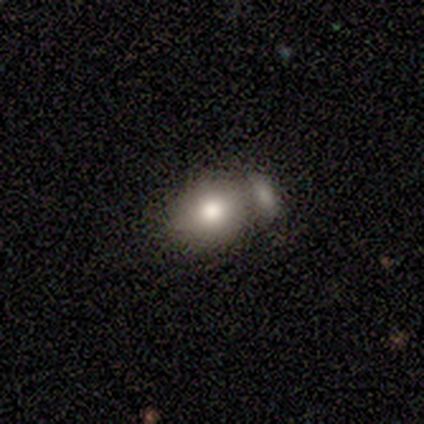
smooth-or-featured: smooth: 80% | featured or disk: 20% | star or artifact: 0%
  how-rounded: round: 50% (tied) | in between: 50% (tied) | cigar-shaped: 0%
  merging: merger: 60% | minor disturbance: 20% | major disturbance: 20% | none: 0%